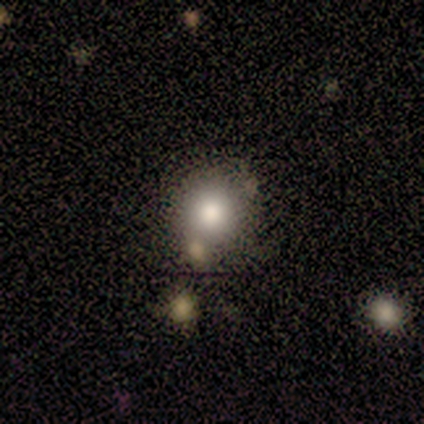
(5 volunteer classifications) Volunteers were most divided on "smooth or featured": smooth: 60%, featured or disk: 40%, star or artifact: 0%. More confident: how rounded — round (100%); merging — none (80%).